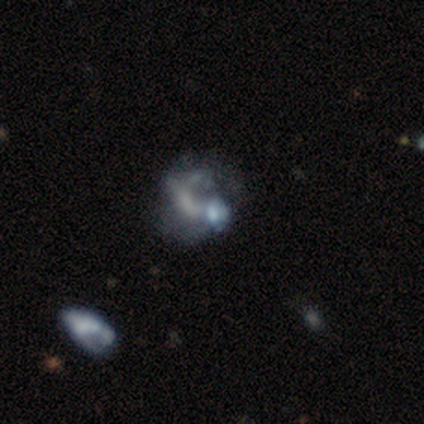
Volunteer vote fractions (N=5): Q: Smooth or featured?
A: featured or disk (80%); runner-up: star or artifact (20%)
Q: Edge-on disk?
A: no (100%)
Q: Bar?
A: no (100%)
Q: Spiral arms?
A: no (75%); runner-up: yes (25%)
Q: Bulge size?
A: none (50%); runner-up: moderate (25%)
Q: Merging?
A: none (50%); tied with: major disturbance (50%)